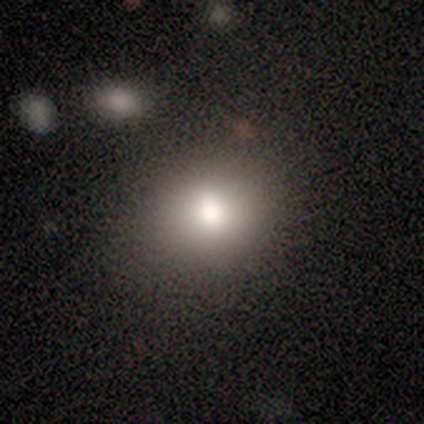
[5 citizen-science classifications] smooth 80%, featured or disk 20%, star or artifact 0%. Down the decision tree: how rounded — round (50%, tied with in between); merging — none (80%).